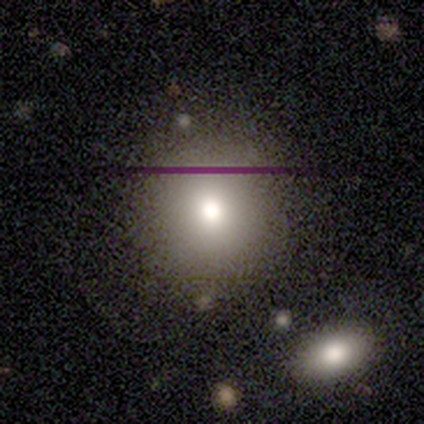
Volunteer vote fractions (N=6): Smooth or featured: smooth — 83% (featured or disk — 17%)
How rounded: round — 100%
Merging: none — 83% (major disturbance — 17%)